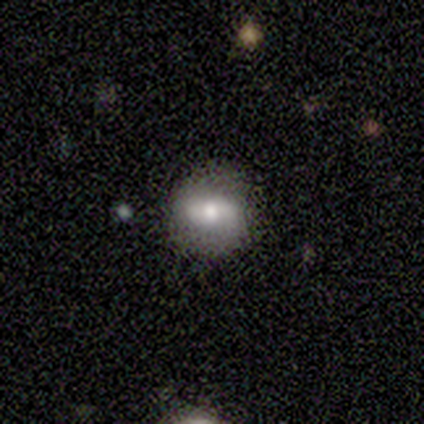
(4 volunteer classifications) Overall: smooth (75%). How rounded: round (67%; in between 33%). Merging: none (75%).